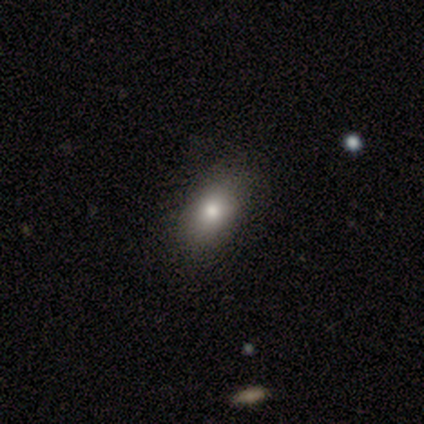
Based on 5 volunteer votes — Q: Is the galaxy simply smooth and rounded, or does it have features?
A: smooth — 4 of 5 (80%).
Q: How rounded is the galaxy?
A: in between — 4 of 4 (100%).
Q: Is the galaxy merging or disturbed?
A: minor disturbance — 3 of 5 (60%).